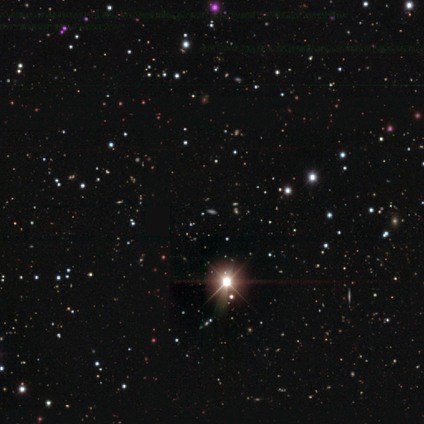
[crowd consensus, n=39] Smooth or featured: star or artifact — 90% (smooth — 10%)